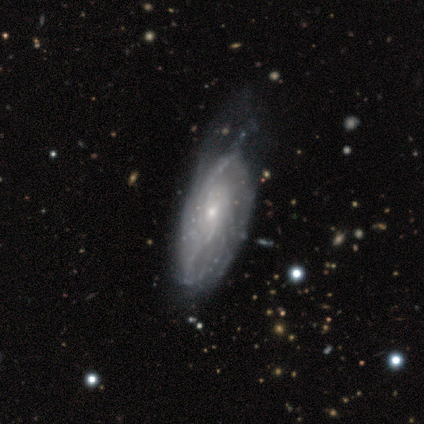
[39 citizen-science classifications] This is clearly a featured or disk galaxy (87%). It is clearly not viewed edge-on (82%). Bar: likely no (64%). Spiral arm pattern: clearly yes (93%). Spiral arm count: marginally can't tell (35%). Spiral winding: possibly medium (46%). Central bulge: clearly small (82%). Merging: possibly none (46%).